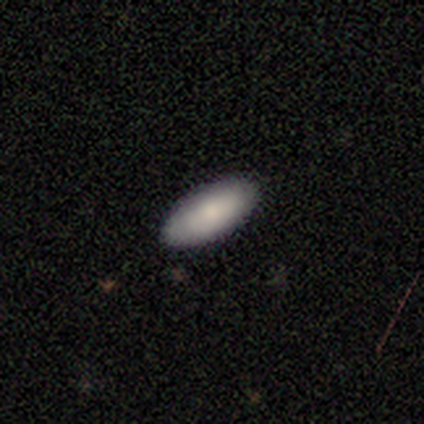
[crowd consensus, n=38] Volunteers were most divided on "how rounded": in between: 85%, cigar-shaped: 15%, round: 0%. More confident: merging — none (95%); smooth or featured — smooth (87%).